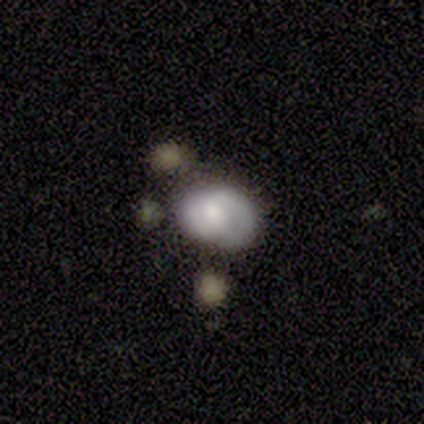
Q: Smooth or featured?
A: featured or disk (57%); runner-up: smooth (42%)
Q: Edge-on disk?
A: no (96%); runner-up: yes (4%)
Q: Bar?
A: no (68%); runner-up: weak (23%)
Q: Spiral arms?
A: yes (82%); runner-up: no (18%)
Q: Spiral winding?
A: tight (67%); runner-up: medium (17%)
Q: Spiral arm count?
A: 2 (72%); runner-up: 1 (17%)
Q: Bulge size?
A: moderate (73%); runner-up: small (23%)
Q: Merging?
A: none (40%); runner-up: minor disturbance (30%)